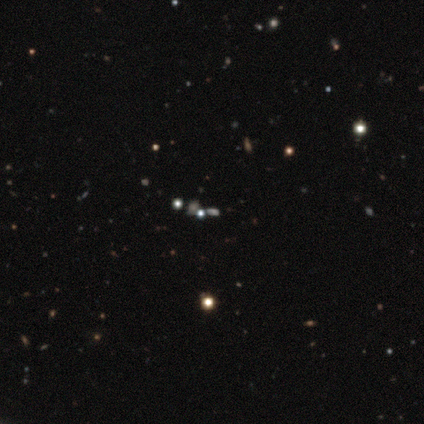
Overall: star or artifact (100%).